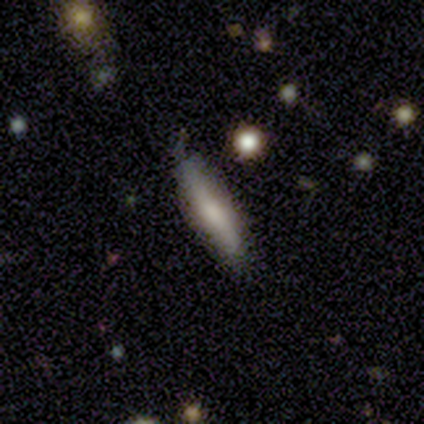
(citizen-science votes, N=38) A smooth galaxy with no disk features (61%) that is cigar-shaped (65%). Merging: none (72%).